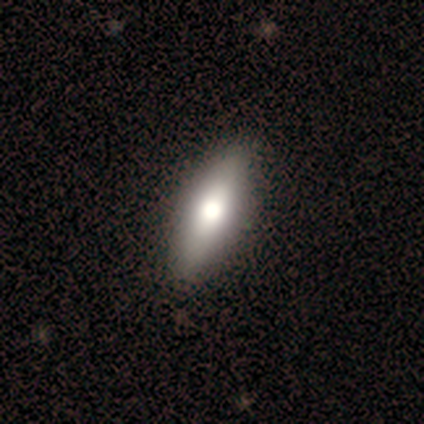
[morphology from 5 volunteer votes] Smooth or featured?
  - smooth: 80% *
  - featured or disk: 20%
  - star or artifact: 0%
How rounded?
  - in between: 50% * (tied)
  - cigar-shaped: 50% * (tied)
  - round: 0%
Merging?
  - none: 80% *
  - major disturbance: 20%
  - minor disturbance: 0%
  - merger: 0%